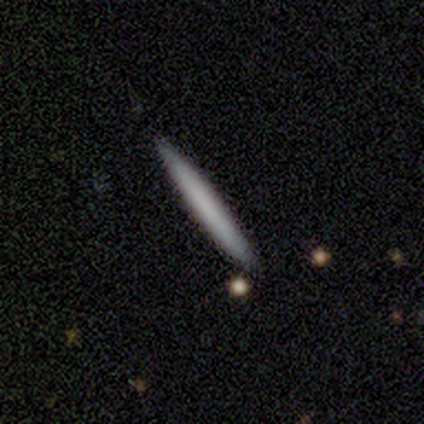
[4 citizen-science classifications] Overall: smooth (75%). How rounded: cigar-shaped (100%). Merging: none (100%).